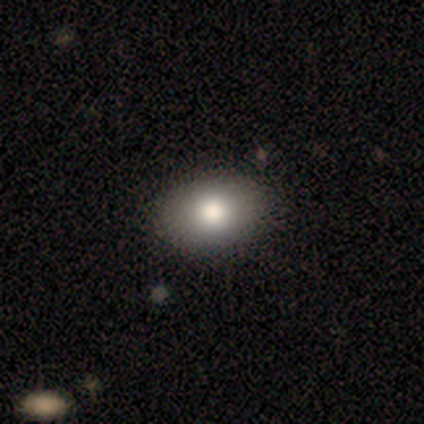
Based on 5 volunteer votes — This is clearly a smooth galaxy (100%). How rounded: clearly in between (80%). Merging: likely none (60%).